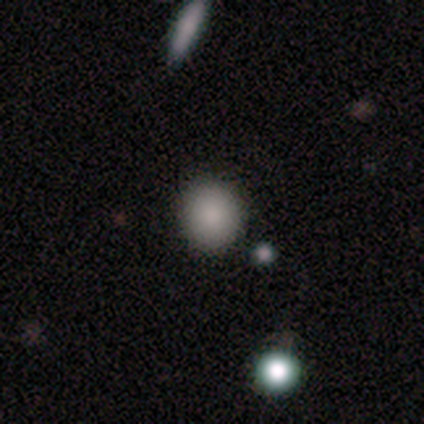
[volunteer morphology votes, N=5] Overall: star or artifact (60%; smooth 40%).